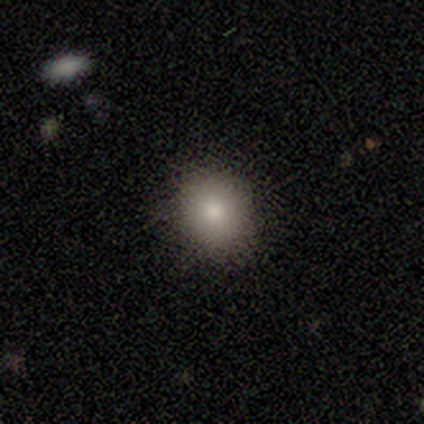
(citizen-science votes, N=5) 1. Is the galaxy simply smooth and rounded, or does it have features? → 80% smooth, 20% featured or disk, 0% star or artifact.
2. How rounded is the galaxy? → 75% round, 25% in between, 0% cigar-shaped.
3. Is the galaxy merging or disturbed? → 100% none, 0% minor disturbance, 0% major disturbance, 0% merger.